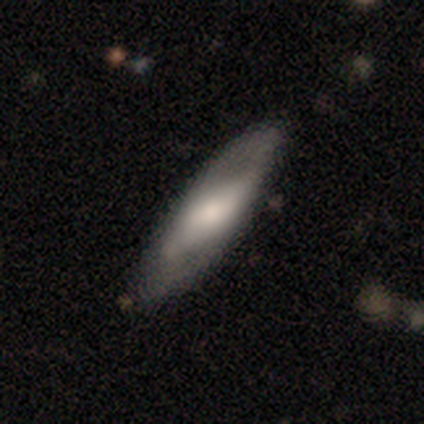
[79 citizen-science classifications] A smooth galaxy with no disk features (49%) that is in between round and cigar-shaped (64%). Merging: none (34%).